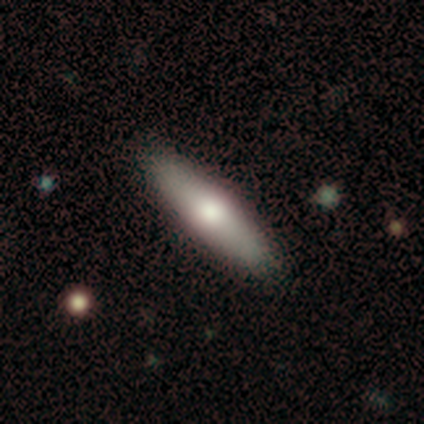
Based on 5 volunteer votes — This is clearly a smooth galaxy (100%). How rounded: likely cigar-shaped (60%). Merging: clearly none (100%).